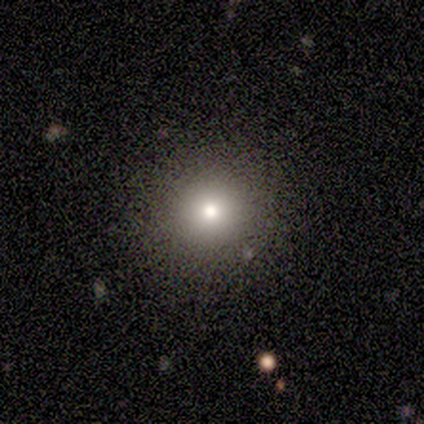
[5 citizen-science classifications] Volunteers were most divided on "smooth or featured": smooth: 80%, star or artifact: 20%, featured or disk: 0%. More confident: how rounded — round (100%); merging — none (100%).